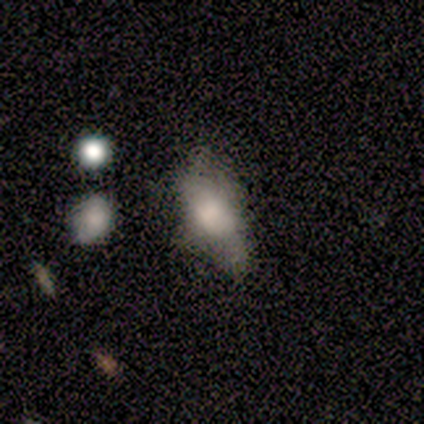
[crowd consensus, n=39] smooth 67%, star or artifact 18%, featured or disk 15%. Down the decision tree: how rounded — in between (88%); merging — none (41%).